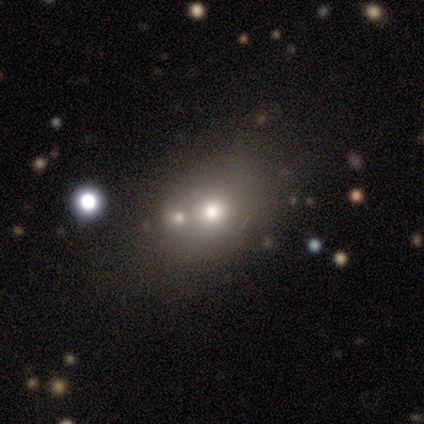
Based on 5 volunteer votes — This is likely a smooth galaxy (60%). How rounded: likely in between (67%). Merging: likely none (75%).